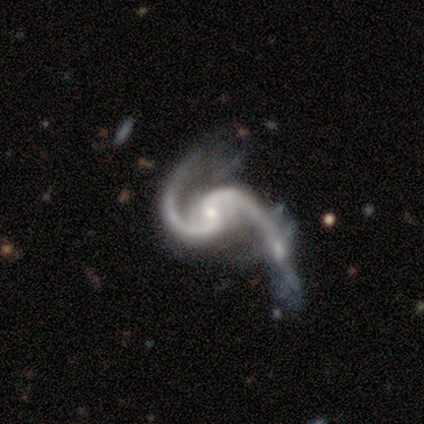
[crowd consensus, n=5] Overall: featured or disk (100%). Edge-on disk: no (100%). Bar: weak (60%; no 40%). Spiral arms: yes (100%). Spiral arm count: 2 (100%). Spiral winding: medium (80%). Bulge size: small (100%). Merging: major disturbance (60%; none 20%).